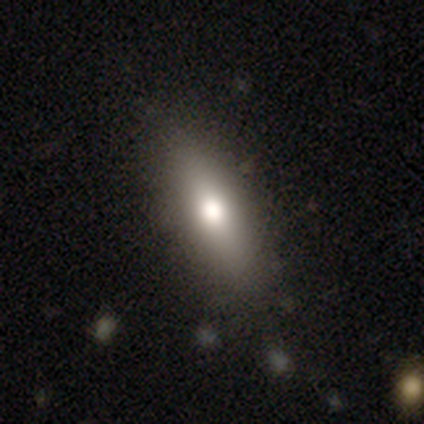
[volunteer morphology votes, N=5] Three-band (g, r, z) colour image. It shows a smooth galaxy with no disk features (100%) that is cigar-shaped (60%). Merging: none (100%).